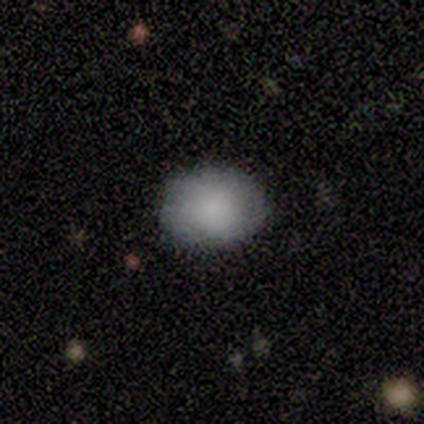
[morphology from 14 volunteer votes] This appears to be a smooth galaxy with no disk features (93%) that is in between round and cigar-shaped (54%). Merging: none (92%).